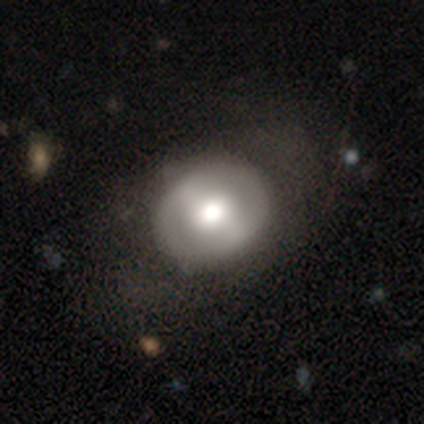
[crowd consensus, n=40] Morphology: type=featured or disk (57%); edge-on=no (100%); bar=strong (35%, tied with no); spiral arms=no (87%); bulge=moderate (70%); merging=none (60%).